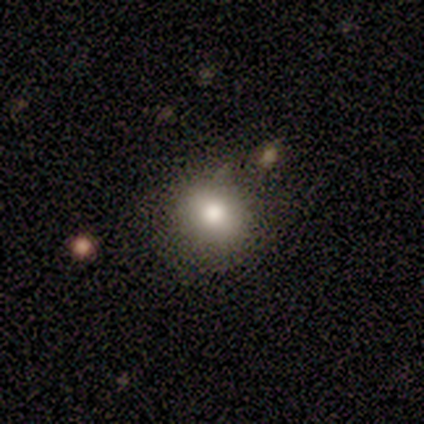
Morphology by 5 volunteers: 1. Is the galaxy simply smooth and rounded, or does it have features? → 100% smooth, 0% featured or disk, 0% star or artifact.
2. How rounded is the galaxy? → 80% round, 20% in between, 0% cigar-shaped.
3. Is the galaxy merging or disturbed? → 100% none, 0% minor disturbance, 0% major disturbance, 0% merger.